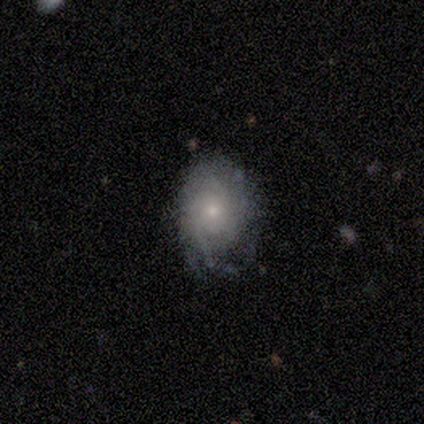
Smooth or featured?
  - featured or disk: 80% *
  - smooth: 20%
  - star or artifact: 0%
Edge-on disk?
  - no: 100% *
  - yes: 0%
Bar?
  - no: 100% *
  - strong: 0%
  - weak: 0%
Spiral arms?
  - yes: 100% *
  - no: 0%
Spiral winding?
  - tight: 50% *
  - medium: 25%
  - loose: 25%
Spiral arm count?
  - can't tell: 50% *
  - 2: 25%
  - 3: 25%
  - 1: 0%
  - 4: 0%
  - more than 4: 0%
Bulge size?
  - small: 75% *
  - moderate: 25%
  - dominant: 0%
  - large: 0%
  - none: 0%
Merging?
  - minor disturbance: 60% *
  - none: 20%
  - major disturbance: 20%
  - merger: 0%